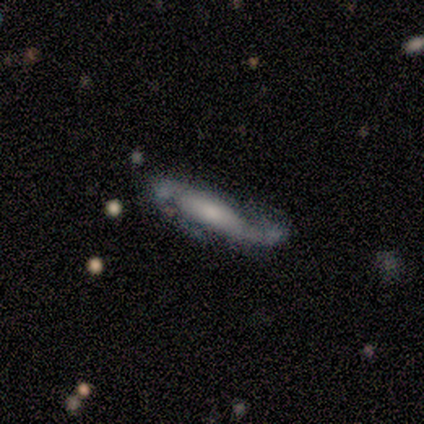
Volunteers were most divided on "edge-on disk": yes: 60%, no: 40%. More confident: smooth or featured — featured or disk (83%); edge-on bulge — rounded (67%); merging — minor disturbance (60%).